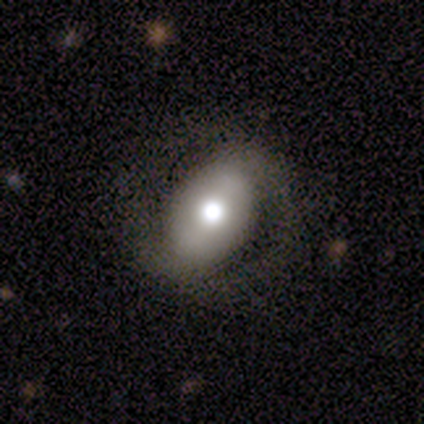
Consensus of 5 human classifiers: Volunteers were most divided on "bulge size" (2-way tie): large: 50%, moderate: 50%, dominant: 0%, small: 0%, none: 0%. More confident: edge-on disk — no (100%); spiral arm count — 2 (100%); merging — none (100%); smooth or featured — featured or disk (80%); bar — no (75%); spiral arms — yes (75%); spiral winding — tight (67%).